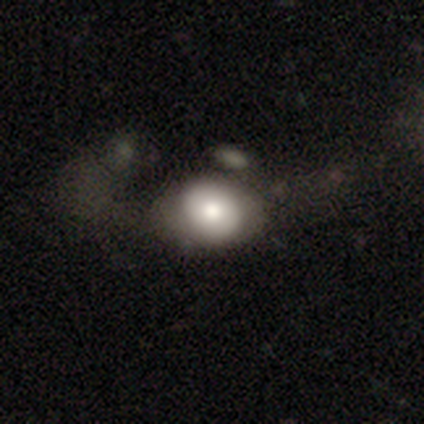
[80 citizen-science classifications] Overall: smooth (71%). How rounded: in between (53%; round 47%). Merging: major disturbance (24%; none 17%).